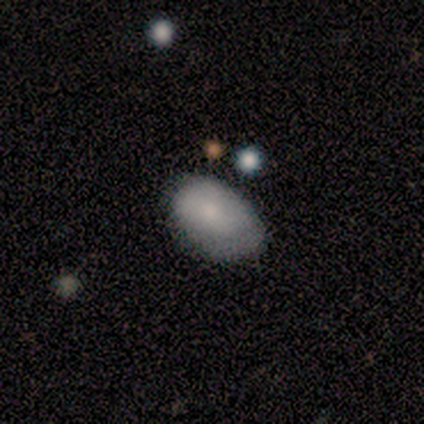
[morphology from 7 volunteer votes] This is clearly a smooth galaxy (86%). How rounded: clearly in between (83%). Merging: possibly none (57%).